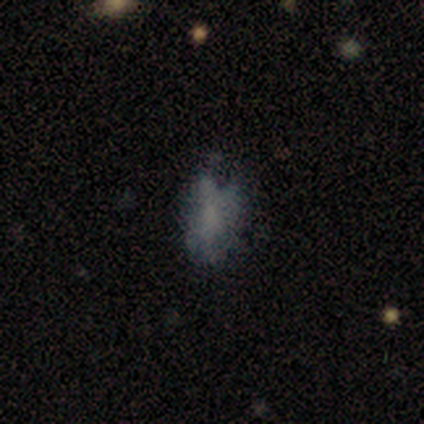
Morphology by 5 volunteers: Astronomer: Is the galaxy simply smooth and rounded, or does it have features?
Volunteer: smooth — 80%.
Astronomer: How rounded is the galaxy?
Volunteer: in between — 100%.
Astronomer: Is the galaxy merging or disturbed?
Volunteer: none — 40%, tied with minor disturbance at 40%.